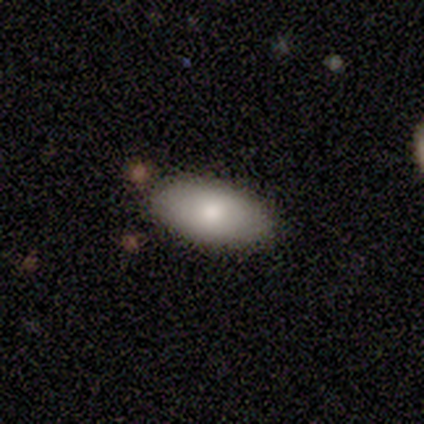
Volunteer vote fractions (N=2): Smooth or featured? 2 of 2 (100%) said smooth. How rounded? 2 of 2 (100%) said in between. Merging? 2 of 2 (100%) said none.